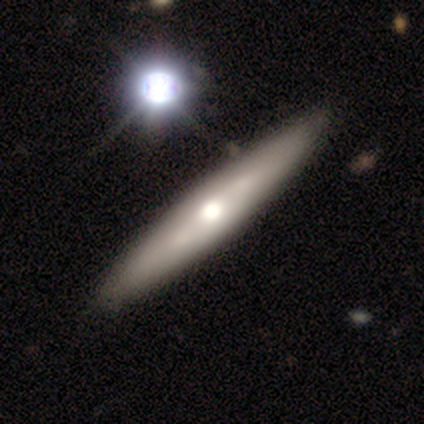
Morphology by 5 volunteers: Smooth or featured?
  - featured or disk: 60% *
  - smooth: 20%
  - star or artifact: 20%
Edge-on disk?
  - no: 67% *
  - yes: 33%
Bar?
  - no: 100% *
  - strong: 0%
  - weak: 0%
Spiral arms?
  - yes: 50% * (tied)
  - no: 50% * (tied)
Spiral winding?
  - tight: 100% *
  - medium: 0%
  - loose: 0%
Spiral arm count?
  - can't tell: 100% *
  - 1: 0%
  - 2: 0%
  - 3: 0%
  - 4: 0%
  - more than 4: 0%
Bulge size?
  - moderate: 100% *
  - dominant: 0%
  - large: 0%
  - small: 0%
  - none: 0%
Merging?
  - none: 100% *
  - minor disturbance: 0%
  - major disturbance: 0%
  - merger: 0%